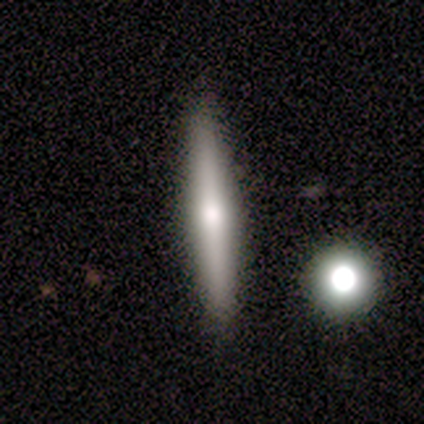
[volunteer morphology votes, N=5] smooth_or_featured: featured or disk (p=0.80) [alt: smooth p=0.20]
disk_edge_on: yes (p=1.00)
edge_on_bulge: rounded (p=0.75) [alt: none p=0.25]
merging: none (p=1.00)